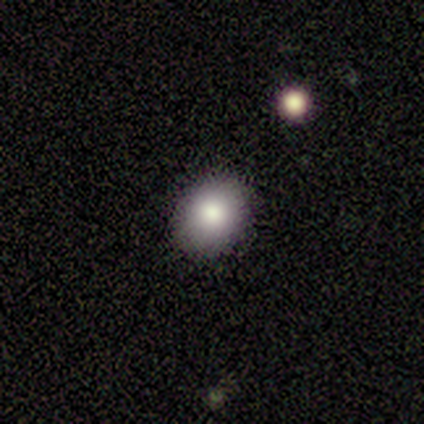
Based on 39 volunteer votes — Smooth or featured?
  - smooth: 77% *
  - star or artifact: 13%
  - featured or disk: 10%
How rounded?
  - round: 57% *
  - in between: 43%
  - cigar-shaped: 0%
Merging?
  - none: 91% *
  - minor disturbance: 6%
  - merger: 3%
  - major disturbance: 0%